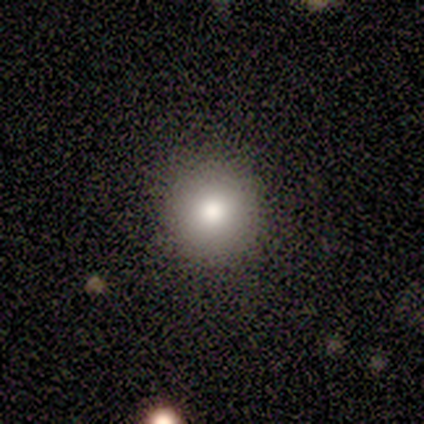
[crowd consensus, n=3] Smooth or featured?
  - smooth: 100% *
  - featured or disk: 0%
  - star or artifact: 0%
How rounded?
  - round: 100% *
  - in between: 0%
  - cigar-shaped: 0%
Merging?
  - none: 100% *
  - minor disturbance: 0%
  - major disturbance: 0%
  - merger: 0%